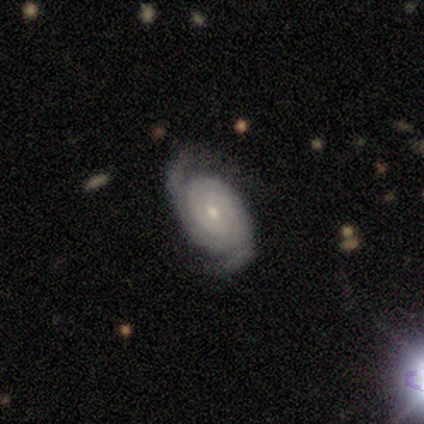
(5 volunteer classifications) Q: Smooth or featured?
A: featured or disk (100%)
Q: Edge-on disk?
A: no (80%); runner-up: yes (20%)
Q: Bar?
A: no (100%)
Q: Spiral arms?
A: yes (100%)
Q: Spiral winding?
A: tight (100%)
Q: Spiral arm count?
A: 2 (75%); runner-up: can't tell (25%)
Q: Bulge size?
A: small (75%); runner-up: moderate (25%)
Q: Merging?
A: none (100%)